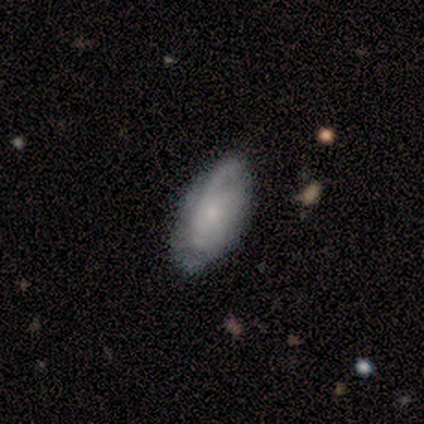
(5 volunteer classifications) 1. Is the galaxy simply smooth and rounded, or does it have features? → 60% featured or disk, 40% smooth, 0% star or artifact.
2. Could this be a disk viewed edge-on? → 100% no, 0% yes.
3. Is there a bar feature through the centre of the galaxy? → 100% no, 0% strong, 0% weak.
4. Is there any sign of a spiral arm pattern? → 67% yes, 33% no.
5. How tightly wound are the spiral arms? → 100% tight, 0% medium, 0% loose.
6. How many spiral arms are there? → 50% 3 (tied), 50% can't tell (tied), 0% 1, 0% 2, 0% 4, 0% more than 4.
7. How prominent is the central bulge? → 100% small, 0% dominant, 0% large, 0% moderate, 0% none.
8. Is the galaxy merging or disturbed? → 80% none, 20% minor disturbance, 0% major disturbance, 0% merger.